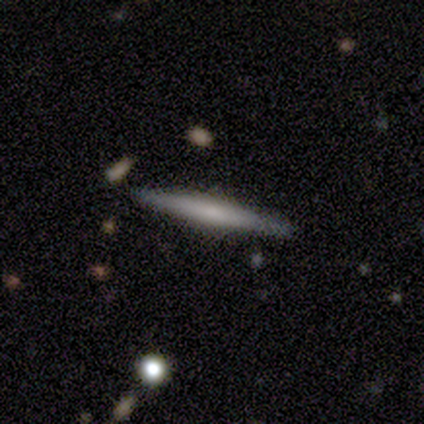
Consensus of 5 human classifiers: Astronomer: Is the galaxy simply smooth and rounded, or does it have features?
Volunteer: featured or disk — 60% (runner-up: smooth, 40%).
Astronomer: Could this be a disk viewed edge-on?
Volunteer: yes — 100%.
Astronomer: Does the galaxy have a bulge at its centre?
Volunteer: none — 67%.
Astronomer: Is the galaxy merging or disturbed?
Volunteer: none — 100%.